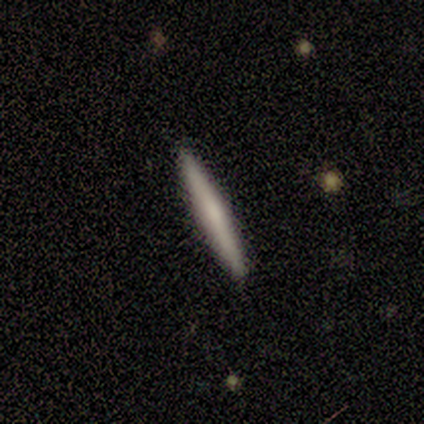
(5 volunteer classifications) Smooth or featured? 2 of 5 (40%, tied with featured or disk) said smooth. How rounded? 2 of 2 (100%) said cigar-shaped. Merging? 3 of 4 (75%) said none.